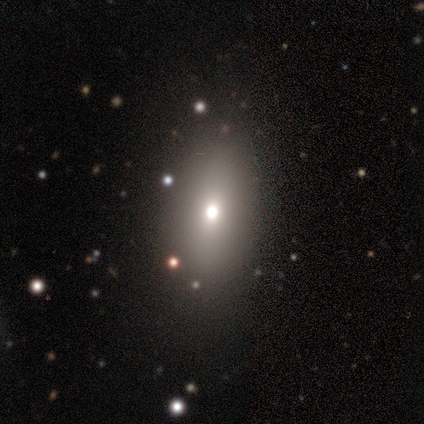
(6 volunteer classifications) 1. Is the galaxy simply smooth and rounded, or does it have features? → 67% smooth, 33% star or artifact, 0% featured or disk.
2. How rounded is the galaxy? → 75% round, 25% in between, 0% cigar-shaped.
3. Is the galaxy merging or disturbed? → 50% none (tied), 50% minor disturbance (tied), 0% major disturbance, 0% merger.